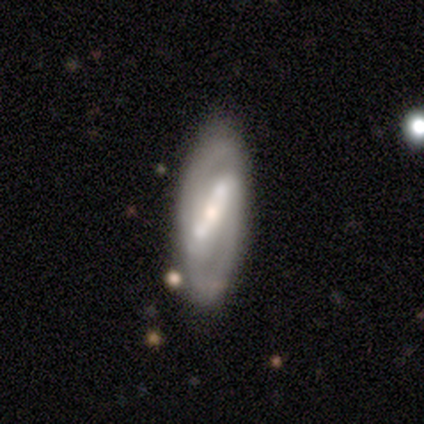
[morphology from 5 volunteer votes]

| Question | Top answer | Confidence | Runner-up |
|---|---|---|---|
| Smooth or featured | featured or disk | 100% | — |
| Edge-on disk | no | 60% | yes (40%) |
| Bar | strong | 100% | — |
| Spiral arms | yes | 100% | — |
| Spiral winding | tight | 100% | — |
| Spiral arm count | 2 | 100% | — |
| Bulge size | small | 67% | moderate (33%) |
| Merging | none | 60% | minor disturbance (40%) |